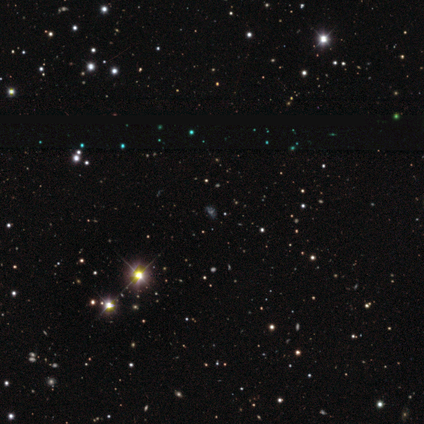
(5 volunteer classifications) This appears to be a featured or disk galaxy (60%) with no bar (67%), no spiral arms (67%) and no central bulge (67%). Merging: none (75%).